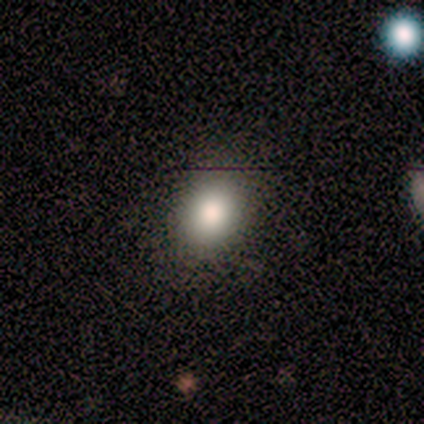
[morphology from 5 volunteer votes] Volunteers were most divided on "how rounded" (2-way tie): round: 50%, in between: 50%, cigar-shaped: 0%. More confident: smooth or featured — smooth (80%); merging — none (60%).